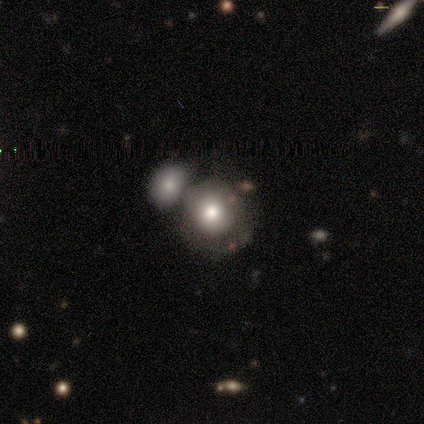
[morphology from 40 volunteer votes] Smooth or featured: smooth — 65% (featured or disk — 20%)
How rounded: round — 88% (in between — 12%)
Merging: merger — 56% (none — 21%)